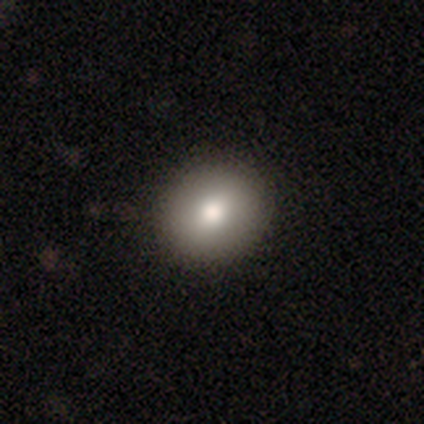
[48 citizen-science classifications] smooth-or-featured: smooth: 71% | featured or disk: 19% | star or artifact: 10%
  how-rounded: round: 88% | in between: 12% | cigar-shaped: 0%
  merging: none: 88% | minor disturbance: 9% | merger: 2% | major disturbance: 0%